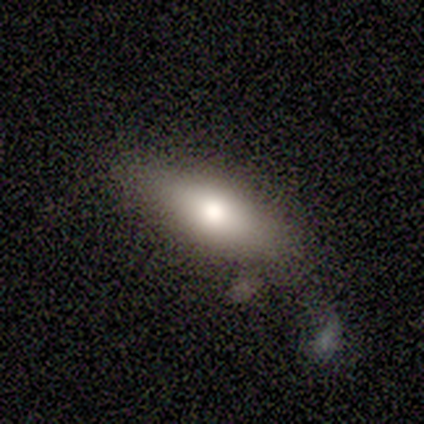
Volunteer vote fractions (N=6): Smooth or featured?
  - smooth: 83% *
  - featured or disk: 17%
  - star or artifact: 0%
How rounded?
  - in between: 80% *
  - cigar-shaped: 20%
  - round: 0%
Merging?
  - none: 50% *
  - minor disturbance: 17%
  - major disturbance: 17%
  - merger: 17%